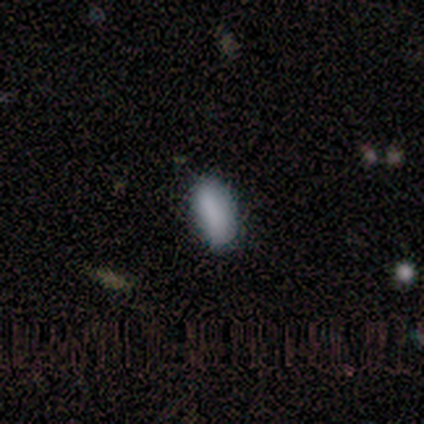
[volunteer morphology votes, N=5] smooth-or-featured: smooth: 80% | featured or disk: 20% | star or artifact: 0%
  how-rounded: in between: 100% | round: 0% | cigar-shaped: 0%
  merging: none: 100% | minor disturbance: 0% | major disturbance: 0% | merger: 0%